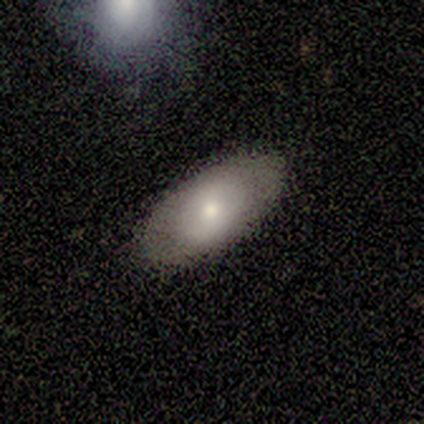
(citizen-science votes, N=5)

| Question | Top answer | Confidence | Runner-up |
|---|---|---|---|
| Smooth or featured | smooth | 40% | tied: star or artifact (40%) |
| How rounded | in between | 100% | — |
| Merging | none | 67% | minor disturbance (33%) |